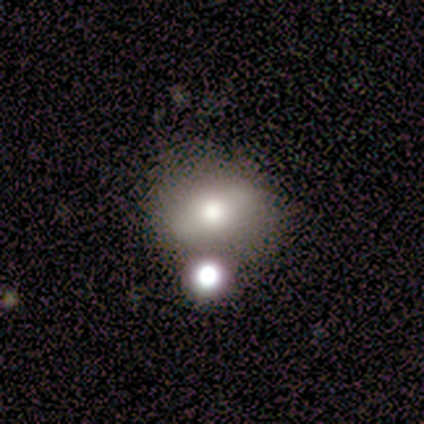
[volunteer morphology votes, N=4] A smooth galaxy with no disk features (100%) that is round (75%). Merging: none (75%).